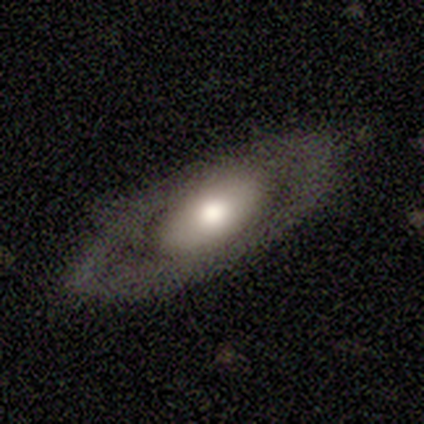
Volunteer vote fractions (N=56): Overall: featured or disk (66%; smooth 30%). Edge-on disk: no (95%). Bar: no (86%). Spiral arms: no (89%). Bulge size: moderate (54%; large 37%). Merging: none (78%).